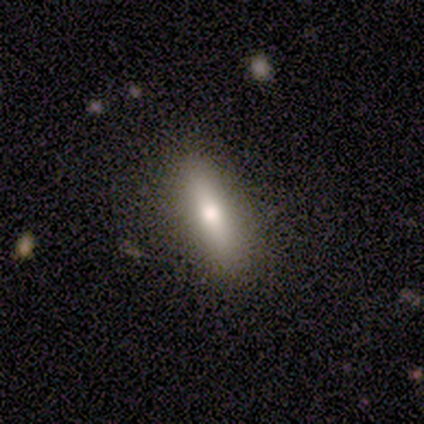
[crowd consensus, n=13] Morphology: type=smooth (77%); roundness=cigar-shaped (60%); merging=none (100%).